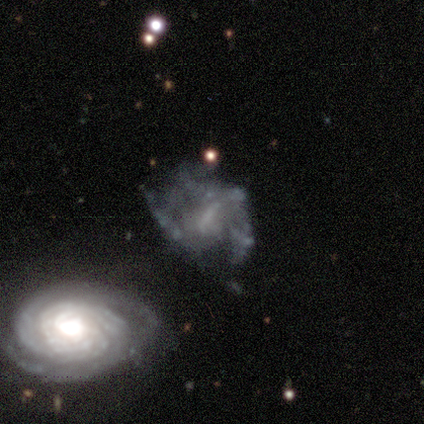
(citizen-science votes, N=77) smooth-or-featured: featured or disk: 81% | smooth: 12% | star or artifact: 8%
  disk-edge-on: no: 100% | yes: 0%
    bar: no: 45% | weak: 42% | strong: 13%
    has-spiral-arms: no: 56% | yes: 44%
    bulge-size: none: 61% | small: 21% | moderate: 15% | large: 3% | dominant: 0%
  merging: major disturbance: 18% | none: 17% | merger: 13% | minor disturbance: 8%